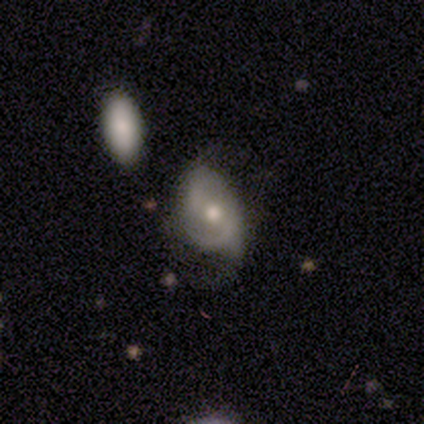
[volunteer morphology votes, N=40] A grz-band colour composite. It shows a featured or disk galaxy (78%) with no bar (48%), 2 (68%) medium (54%) spiral arms (90%) and a moderate central bulge (77%). Merging: none (48%).